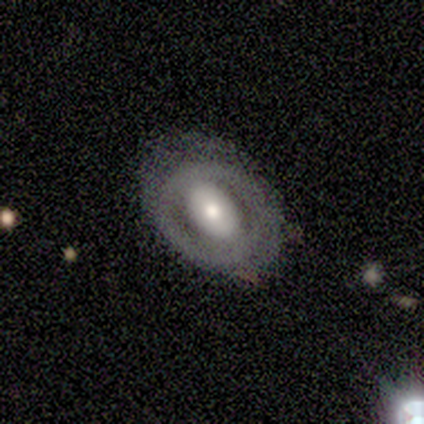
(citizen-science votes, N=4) Q: Smooth or featured?
A: featured or disk (100%)
Q: Edge-on disk?
A: no (100%)
Q: Bar?
A: weak (50%); runner-up: strong (25%)
Q: Spiral arms?
A: no (100%)
Q: Bulge size?
A: moderate (50%); runner-up: large (25%)
Q: Merging?
A: none (50%); tied with: minor disturbance (50%)